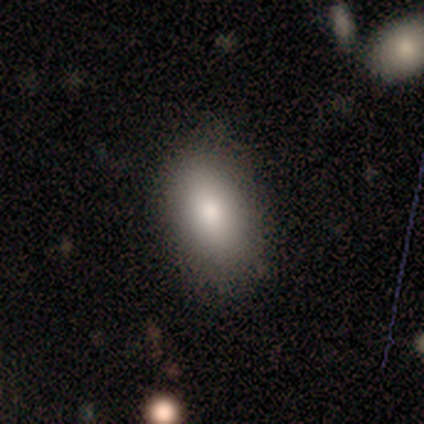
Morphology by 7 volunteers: smooth_or_featured: smooth (p=1.00)
how_rounded: in between (p=1.00)
merging: none (p=1.00)